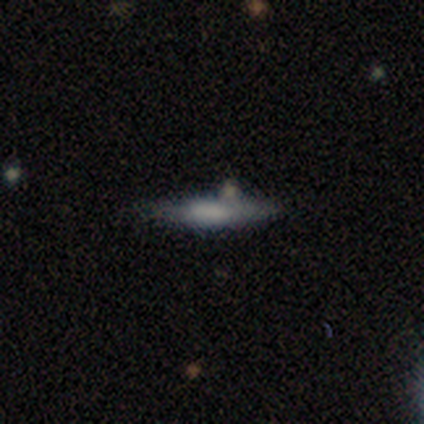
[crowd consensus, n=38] Smooth or featured?
  - smooth: 74% *
  - featured or disk: 21%
  - star or artifact: 5%
How rounded?
  - cigar-shaped: 79% *
  - in between: 18%
  - round: 4%
Merging?
  - none: 69% *
  - minor disturbance: 22%
  - merger: 6%
  - major disturbance: 3%